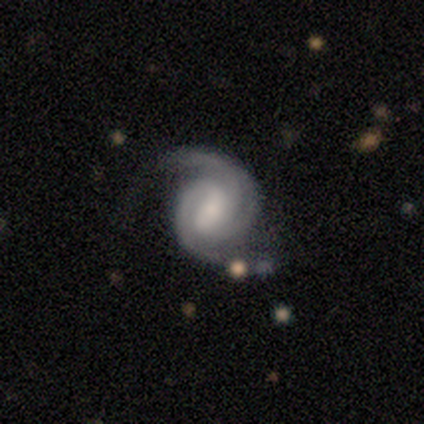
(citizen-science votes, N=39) Smooth or featured? featured or disk (92%)
Edge-on disk? no (100%)
Bar? weak (58%)
Spiral arms? yes (100%)
Spiral winding? medium (53%)
Spiral arm count? 2 (72%)
Bulge size? small (39%)
Merging? none (69%)